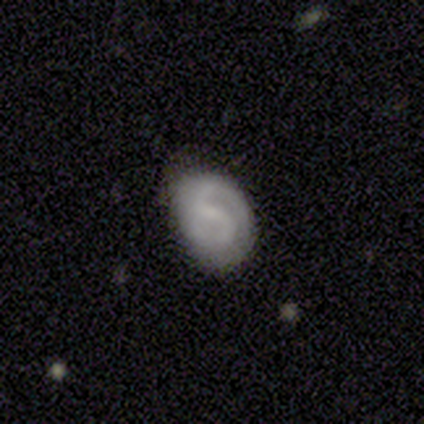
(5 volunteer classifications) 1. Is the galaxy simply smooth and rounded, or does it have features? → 100% featured or disk, 0% smooth, 0% star or artifact.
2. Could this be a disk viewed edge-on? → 100% no, 0% yes.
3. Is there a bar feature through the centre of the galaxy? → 40% strong (tied), 40% weak (tied), 20% no.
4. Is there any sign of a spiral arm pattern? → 100% yes, 0% no.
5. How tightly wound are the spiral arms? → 80% tight, 20% medium, 0% loose.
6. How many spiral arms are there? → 60% 2, 40% can't tell, 0% 1, 0% 3, 0% 4, 0% more than 4.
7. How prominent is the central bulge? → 40% moderate (tied), 40% none (tied), 20% small, 0% dominant, 0% large.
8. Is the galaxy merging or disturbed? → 60% minor disturbance, 40% none, 0% major disturbance, 0% merger.